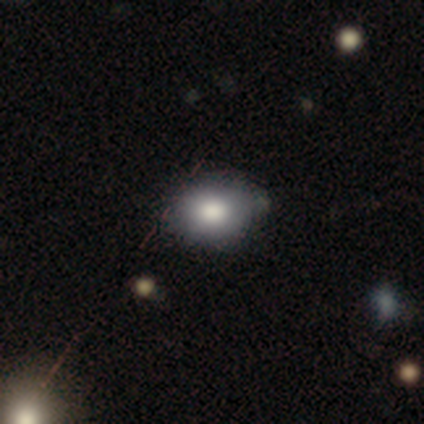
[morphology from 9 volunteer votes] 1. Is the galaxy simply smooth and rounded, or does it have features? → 67% smooth, 22% featured or disk, 11% star or artifact.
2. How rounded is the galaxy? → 50% round (tied), 50% in between (tied), 0% cigar-shaped.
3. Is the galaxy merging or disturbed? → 50% none, 38% minor disturbance, 12% merger, 0% major disturbance.